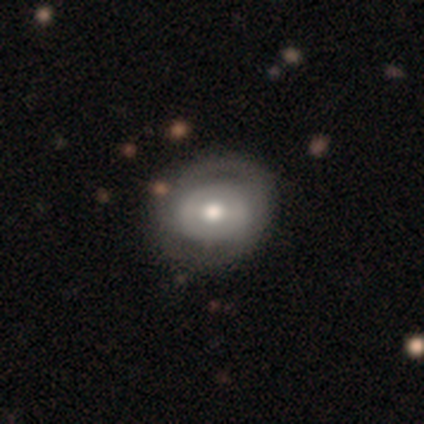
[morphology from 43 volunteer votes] Smooth or featured: featured or disk — 58% (smooth — 35%)
Edge-on disk: no — 100%
Bar: no — 60% (weak — 28%)
Spiral arms: no — 52% (yes — 48%)
Bulge size: moderate — 84% (large — 12%)
Merging: none — 42% (major disturbance — 15%)